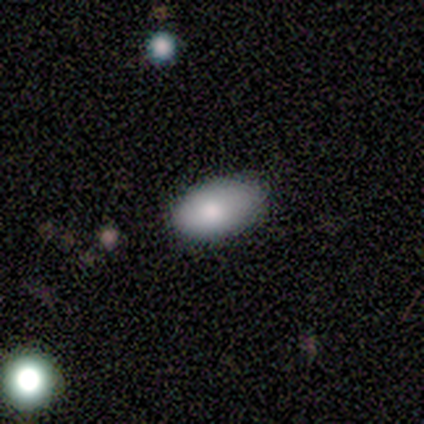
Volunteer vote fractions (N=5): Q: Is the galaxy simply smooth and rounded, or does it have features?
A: smooth — 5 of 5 (100%).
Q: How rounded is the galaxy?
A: in between — 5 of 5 (100%).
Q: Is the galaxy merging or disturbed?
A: none — 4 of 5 (80%).